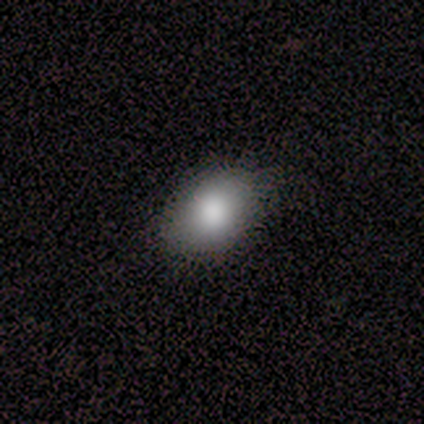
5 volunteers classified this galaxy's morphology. This appears to be a smooth galaxy with no disk features (100%) that is in between round and cigar-shaped (100%). Merging: none (80%).